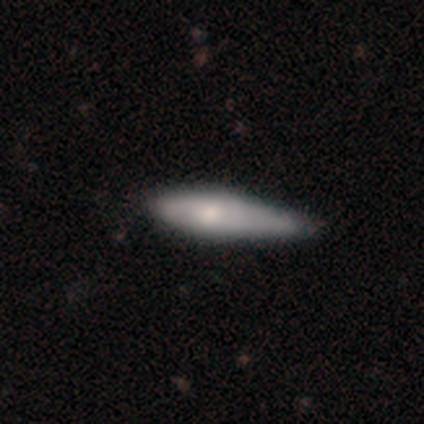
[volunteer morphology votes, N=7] Smooth or featured? 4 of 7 (57%) said featured or disk. Edge-on disk? 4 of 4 (100%) said yes. Edge-on bulge? 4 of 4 (100%) said rounded. Merging? 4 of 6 (67%) said minor disturbance.